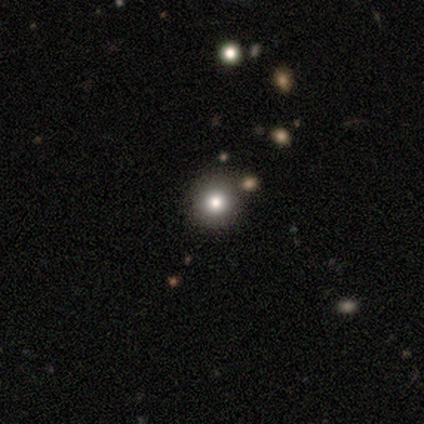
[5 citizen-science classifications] This is likely a star or artifact rather than a galaxy (60%).